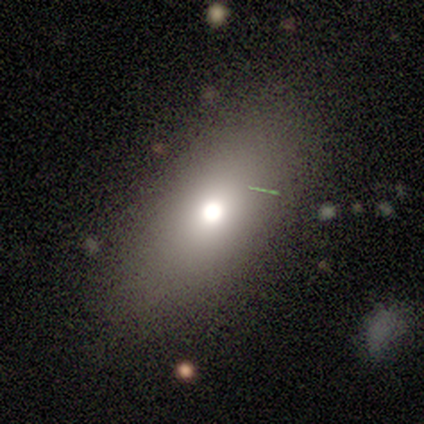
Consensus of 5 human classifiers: This is clearly a smooth galaxy (80%). How rounded: likely in between (75%). Merging: likely none (60%).